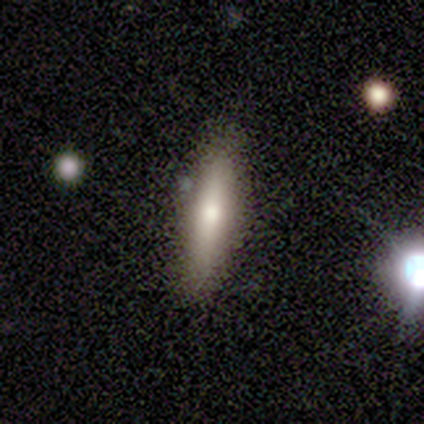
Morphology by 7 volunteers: Overall: smooth (57%; featured or disk 43%). How rounded: in between (50%, tied with cigar-shaped). Merging: none (86%).